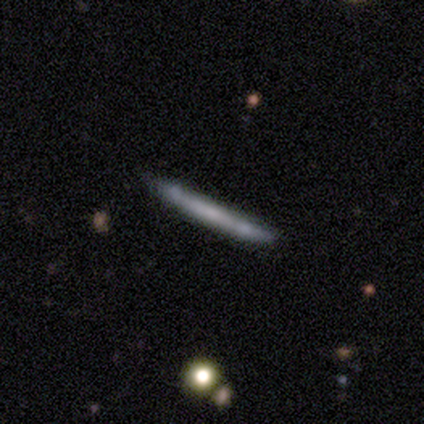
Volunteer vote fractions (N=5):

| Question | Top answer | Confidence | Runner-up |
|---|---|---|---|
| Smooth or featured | featured or disk | 80% | smooth (20%) |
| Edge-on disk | yes | 100% | — |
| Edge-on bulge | none | 50% | tied: rounded (50%) |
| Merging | none | 80% | minor disturbance (20%) |